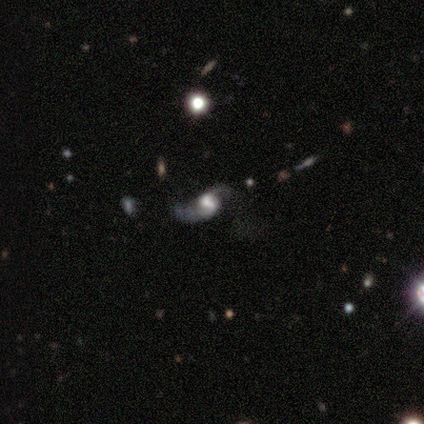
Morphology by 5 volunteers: Volunteers were most divided on "merging" (2-way tie): none: 50%, major disturbance: 50%, minor disturbance: 0%, merger: 0%. More confident: edge-on disk — no (100%); spiral arms — yes (100%); spiral arm count — 2 (100%); bar — weak (67%); spiral winding — loose (67%); bulge size — large (67%); smooth or featured — featured or disk (60%).